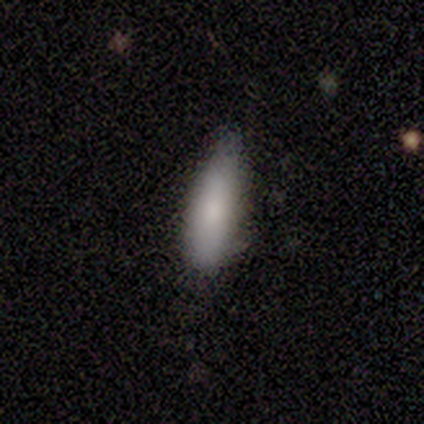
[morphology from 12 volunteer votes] This appears to be a smooth galaxy with no disk features (100%) that is in between round and cigar-shaped (50%, tied with cigar-shaped). Merging: none (50%, tied with minor disturbance).